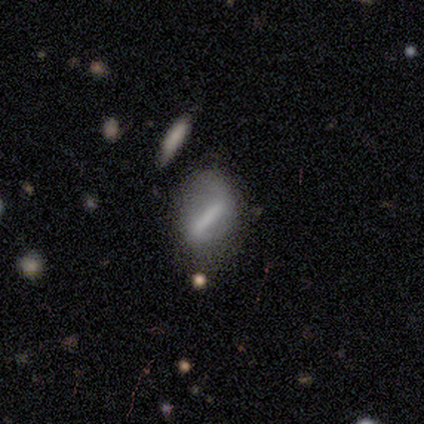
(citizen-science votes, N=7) Q: Smooth or featured?
A: featured or disk (71%); runner-up: smooth (29%)
Q: Edge-on disk?
A: no (100%)
Q: Bar?
A: strong (100%)
Q: Spiral arms?
A: no (80%); runner-up: yes (20%)
Q: Bulge size?
A: none (100%)
Q: Merging?
A: none (71%); runner-up: minor disturbance (14%)